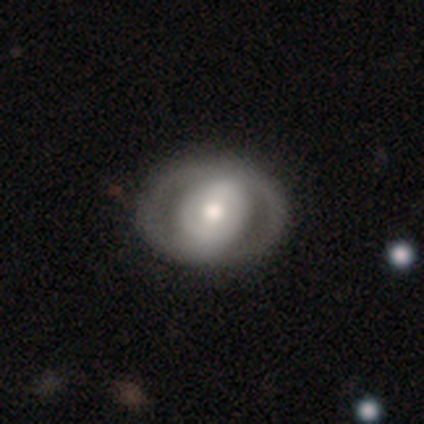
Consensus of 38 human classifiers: smooth_or_featured: featured or disk (p=0.74) [alt: smooth p=0.24]
disk_edge_on: no (p=0.96) [alt: yes p=0.04]
bar: no (p=0.52) [alt: strong p=0.26]
has_spiral_arms: no (p=0.56) [alt: yes p=0.44]
bulge_size: moderate (p=0.70) [alt: large p=0.22]
merging: none (p=0.59) [alt: minor disturbance p=0.05]